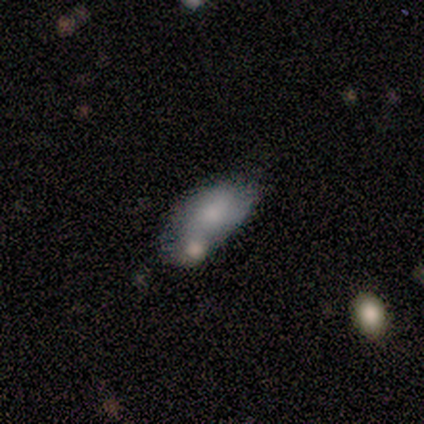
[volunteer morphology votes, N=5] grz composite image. It shows a featured or disk galaxy (80%) with no bar (100%), no spiral arms (100%) and no central bulge (50%). Merging: merger (60%).